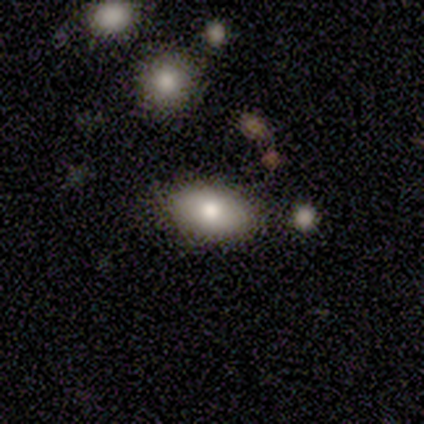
Q: Smooth or featured?
A: smooth (80%); runner-up: featured or disk (20%)
Q: How rounded?
A: in between (100%)
Q: Merging?
A: none (100%)